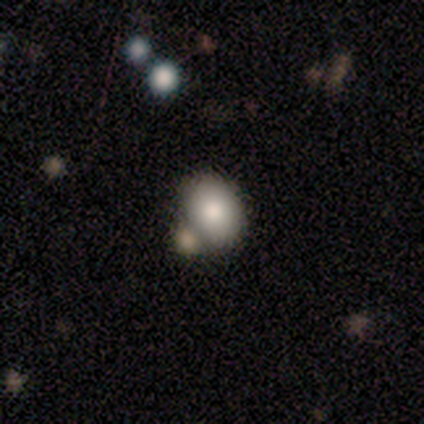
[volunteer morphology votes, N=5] smooth 100%, featured or disk 0%, star or artifact 0%. Down the decision tree: how rounded — in between (60%); merging — none (60%).